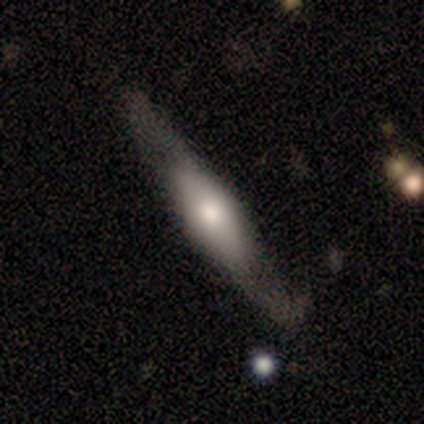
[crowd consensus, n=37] This appears to be a featured or disk galaxy (78%) viewed edge-on (93%) with a rounded central bulge (78%). Merging: none (83%).